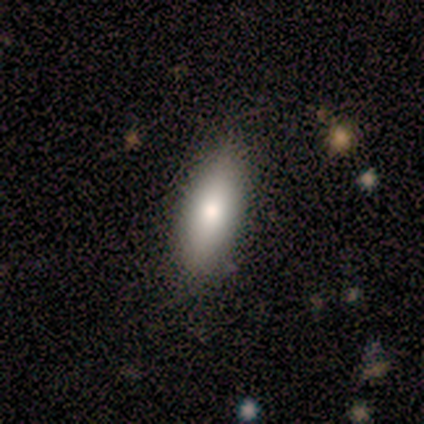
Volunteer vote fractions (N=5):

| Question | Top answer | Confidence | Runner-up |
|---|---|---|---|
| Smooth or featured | smooth | 100% | — |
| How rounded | in between | 80% | cigar-shaped (20%) |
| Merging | none | 100% | — |